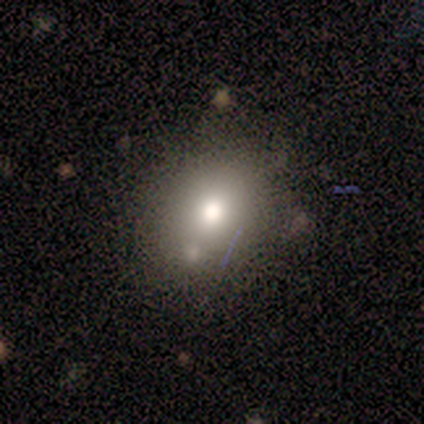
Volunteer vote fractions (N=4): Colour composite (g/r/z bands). It shows a smooth galaxy with no disk features (100%) that is round (75%). Merging: merger (50%).